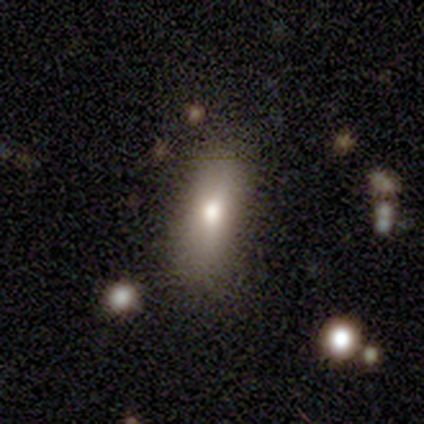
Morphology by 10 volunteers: This is likely a smooth galaxy (60%). How rounded: possibly in between (50%, tied with cigar-shaped). Merging: likely none (62%).